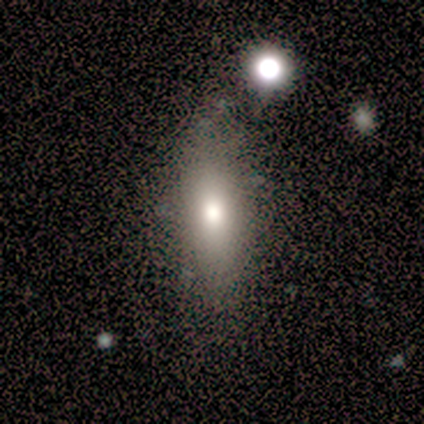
A smooth galaxy with no disk features (78%) that is cigar-shaped (57%).

Vote fractions:
- Smooth or featured? smooth: 78% / featured or disk: 22% / star or artifact: 0%
- How rounded? cigar-shaped: 57% / in between: 43% / round: 0%
- Merging? none: 78% / minor disturbance: 11% / major disturbance: 11% / merger: 0%